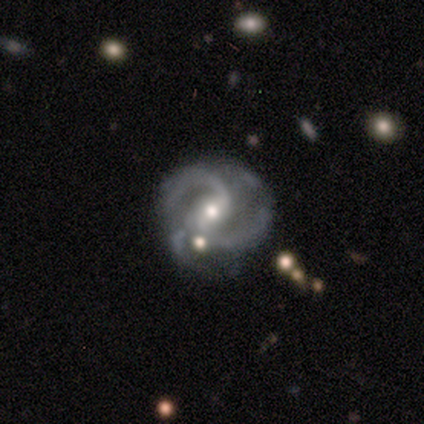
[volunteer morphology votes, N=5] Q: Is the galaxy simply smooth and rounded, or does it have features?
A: featured or disk — 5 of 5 (100%).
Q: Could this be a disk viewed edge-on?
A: no — 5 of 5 (100%).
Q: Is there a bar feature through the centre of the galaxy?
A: weak — 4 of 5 (80%).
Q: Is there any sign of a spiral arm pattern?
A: yes — 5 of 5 (100%).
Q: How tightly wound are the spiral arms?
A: medium — 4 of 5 (80%).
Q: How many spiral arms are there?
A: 2 — 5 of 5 (100%).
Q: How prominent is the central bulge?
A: moderate — 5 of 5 (100%).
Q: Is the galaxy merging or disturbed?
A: minor disturbance — 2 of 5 (40%, tied with merger).